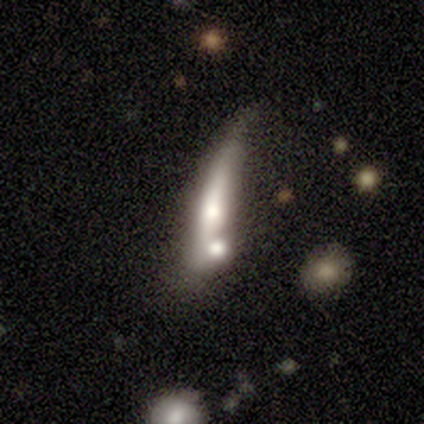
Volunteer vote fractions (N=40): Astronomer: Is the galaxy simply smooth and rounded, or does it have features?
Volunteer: featured or disk — 50% (runner-up: smooth, 45%).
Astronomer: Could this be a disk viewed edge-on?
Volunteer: yes — 90%.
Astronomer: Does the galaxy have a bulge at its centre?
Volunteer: rounded — 78%.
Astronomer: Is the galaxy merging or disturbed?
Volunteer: merger — 37% (runner-up: none, 26%).